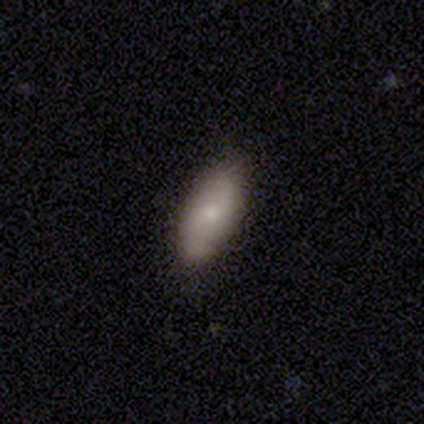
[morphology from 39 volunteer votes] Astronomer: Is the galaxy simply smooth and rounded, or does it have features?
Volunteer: smooth — 74%.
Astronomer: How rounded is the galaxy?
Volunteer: in between — 69%.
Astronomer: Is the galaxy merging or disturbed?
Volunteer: none — 83%.